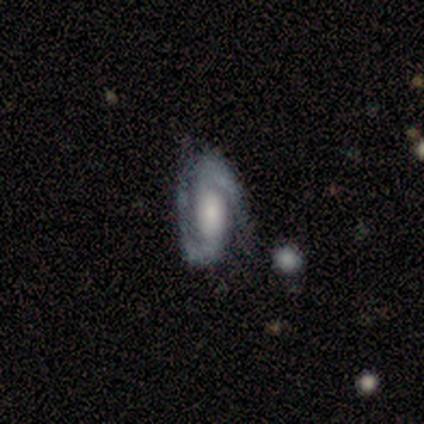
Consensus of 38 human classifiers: smooth-or-featured: featured or disk: 92% | smooth: 8% | star or artifact: 0%
  disk-edge-on: no: 97% | yes: 3%
    bar: weak: 41% | strong: 32% | no: 26%
    has-spiral-arms: yes: 97% | no: 3%
      spiral-winding: medium: 48% | tight: 27% | loose: 24%
      spiral-arm-count: 2: 94% | 1: 3% | can't tell: 3% | 3: 0% | 4: 0% | more than 4: 0%
    bulge-size: moderate: 35% | large: 29% | small: 26% | none: 9% | dominant: 0%
  merging: none: 71% | minor disturbance: 21% | major disturbance: 8% | merger: 0%